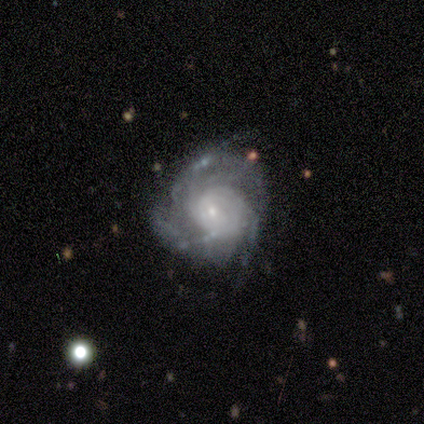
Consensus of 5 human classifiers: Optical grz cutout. It shows a featured or disk galaxy (100%) with no bar (100%), 3 (60%) tight (60%) spiral arms (100%) and a small central bulge (60%). Merging: none (80%).